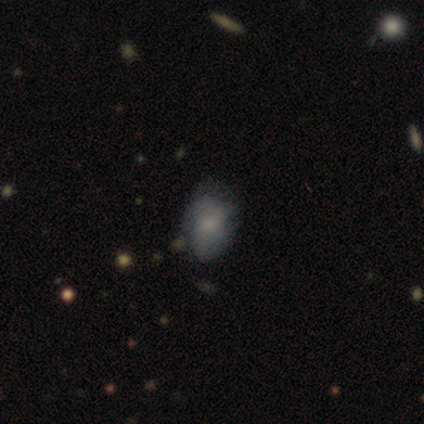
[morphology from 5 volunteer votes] Smooth or featured: featured or disk — 60% (smooth — 40%)
Edge-on disk: no — 100%
Bar: no — 67% (weak — 33%)
Spiral arms: no — 67% (yes — 33%)
Bulge size: moderate — 67% (none — 33%)
Merging: none — 40% (tied with minor disturbance — 40%)